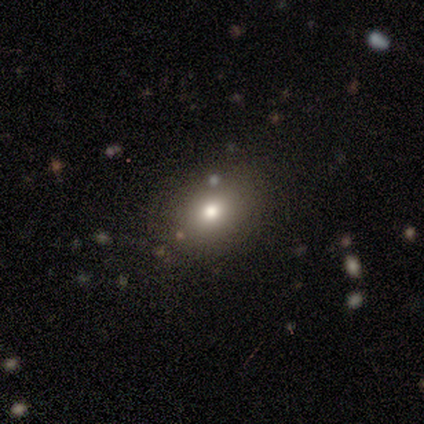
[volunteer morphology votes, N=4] smooth_or_featured: smooth (p=0.75) [alt: featured or disk p=0.25]
how_rounded: in between (p=0.67) [alt: round p=0.33]
merging: none (p=0.75) [alt: minor disturbance p=0.25]